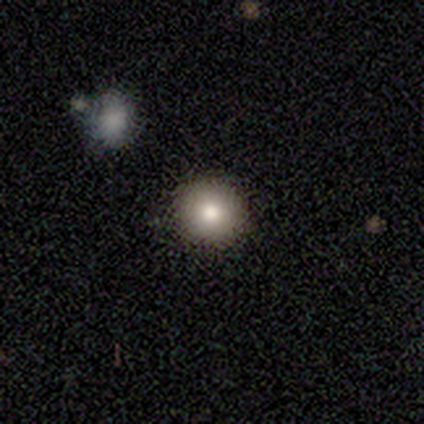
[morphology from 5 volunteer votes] smooth_or_featured: smooth (p=0.60) [alt: featured or disk p=0.20]
how_rounded: round (p=0.67) [alt: in between p=0.33]
merging: none (p=0.50) [tied with: minor disturbance p=0.50]